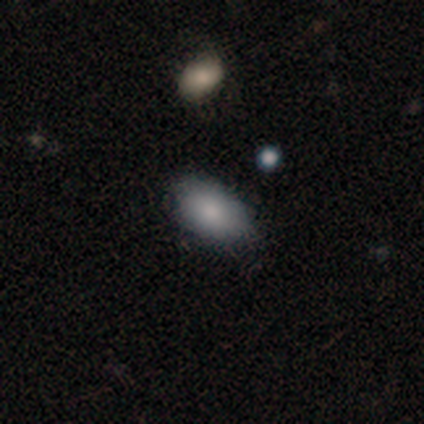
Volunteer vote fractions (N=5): Smooth or featured? 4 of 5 (80%) said smooth. How rounded? 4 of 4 (100%) said in between. Merging? 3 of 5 (60%) said none.